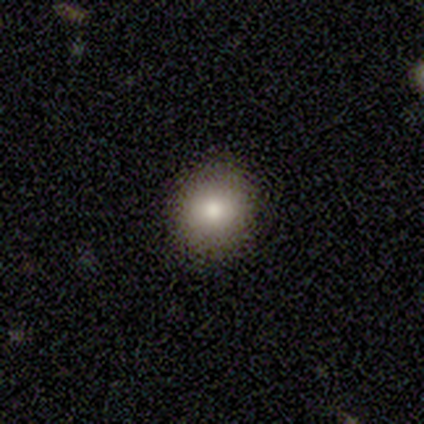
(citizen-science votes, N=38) Smooth or featured? 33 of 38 (87%) said smooth. How rounded? 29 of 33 (88%) said round. Merging? 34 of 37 (92%) said none.